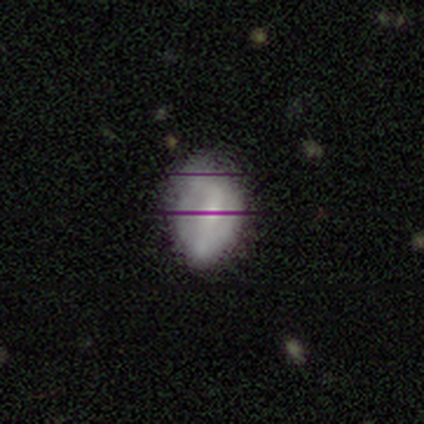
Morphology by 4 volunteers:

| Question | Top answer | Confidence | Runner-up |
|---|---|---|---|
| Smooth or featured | star or artifact | 50% | smooth (25%) |